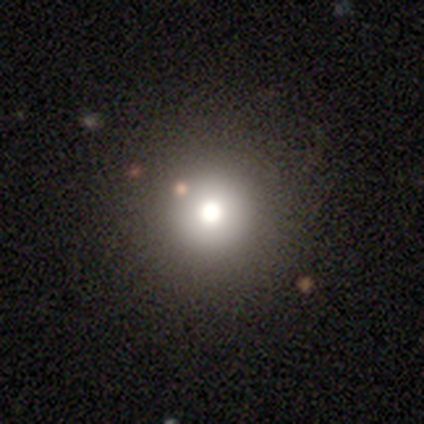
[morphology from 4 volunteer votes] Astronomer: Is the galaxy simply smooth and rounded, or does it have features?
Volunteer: smooth — 50%, tied with star or artifact at 50%.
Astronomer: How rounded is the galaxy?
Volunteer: round — 100%.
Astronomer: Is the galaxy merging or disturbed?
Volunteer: none — 50%, tied with minor disturbance at 50%.